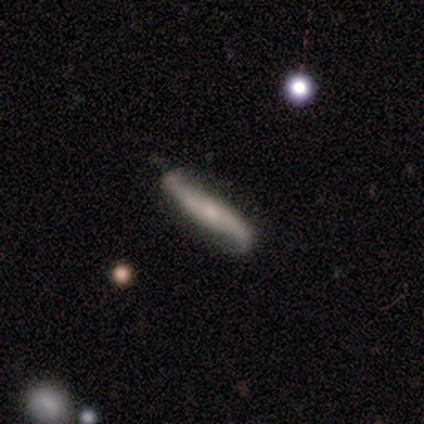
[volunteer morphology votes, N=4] This is likely a smooth galaxy (75%). How rounded: clearly cigar-shaped (100%). Merging: likely minor disturbance (75%).